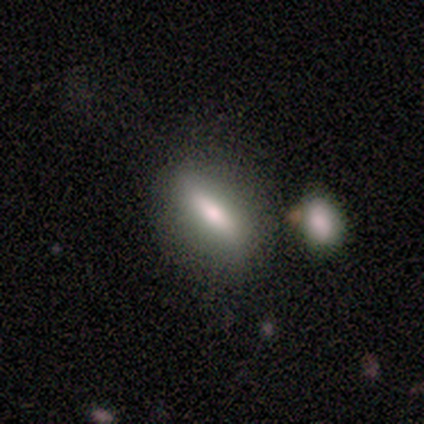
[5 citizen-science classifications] Smooth or featured? smooth (80%)
How rounded? in between (75%)
Merging? none (80%)